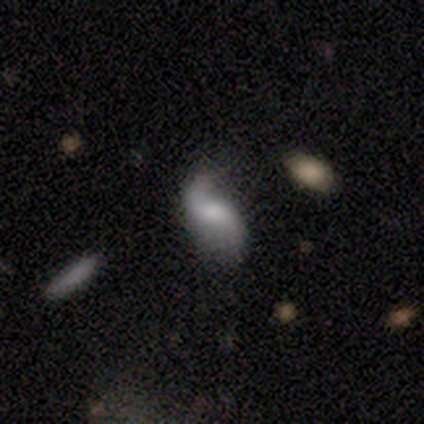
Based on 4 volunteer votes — This is likely a featured or disk galaxy (75%). It is clearly not viewed edge-on (100%). Bar: marginally strong (33%, tied with weak and no). Spiral arm pattern: clearly yes (100%). Spiral arm count: clearly 2 (100%). Spiral winding: clearly loose (100%). Central bulge: likely small (67%). Merging: possibly none (50%, tied with minor disturbance).